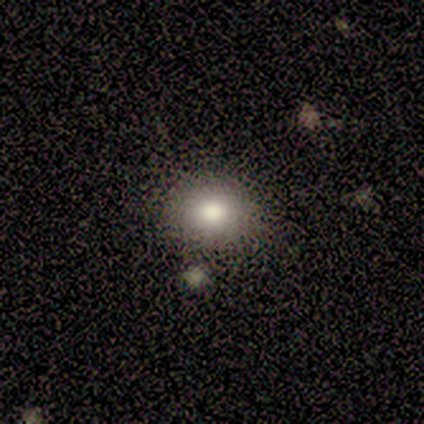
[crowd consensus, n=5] Q: Smooth or featured?
A: smooth (80%); runner-up: star or artifact (20%)
Q: How rounded?
A: round (75%); runner-up: in between (25%)
Q: Merging?
A: none (75%); runner-up: minor disturbance (25%)